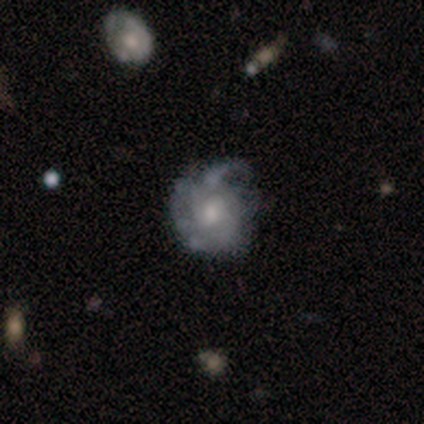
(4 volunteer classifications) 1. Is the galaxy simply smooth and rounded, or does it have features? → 100% featured or disk, 0% smooth, 0% star or artifact.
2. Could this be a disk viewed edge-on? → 100% no, 0% yes.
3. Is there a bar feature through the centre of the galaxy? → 50% weak (tied), 50% no (tied), 0% strong.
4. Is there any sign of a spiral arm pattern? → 100% yes, 0% no.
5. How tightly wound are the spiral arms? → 75% tight, 25% medium, 0% loose.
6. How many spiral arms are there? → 75% can't tell, 25% 2, 0% 1, 0% 3, 0% 4, 0% more than 4.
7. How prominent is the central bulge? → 100% moderate, 0% dominant, 0% large, 0% small, 0% none.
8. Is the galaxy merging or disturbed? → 75% minor disturbance, 25% none, 0% major disturbance, 0% merger.